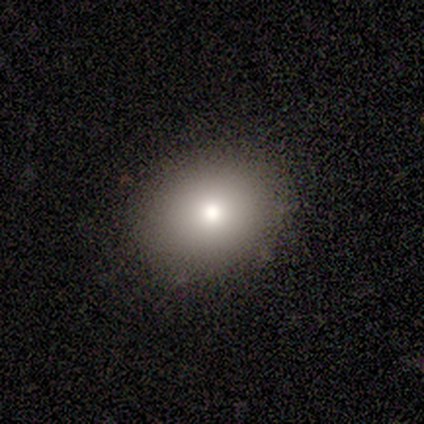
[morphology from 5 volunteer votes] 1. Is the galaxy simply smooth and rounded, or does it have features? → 60% smooth, 20% featured or disk, 20% star or artifact.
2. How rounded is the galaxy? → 67% round, 33% in between, 0% cigar-shaped.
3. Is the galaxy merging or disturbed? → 100% none, 0% minor disturbance, 0% major disturbance, 0% merger.